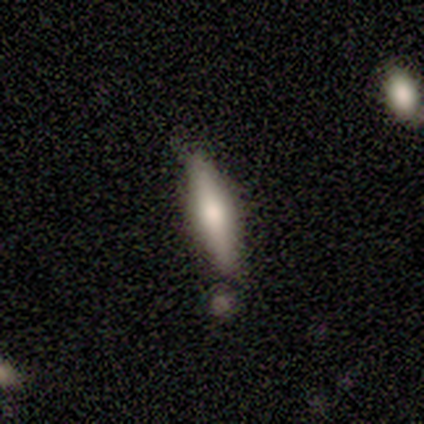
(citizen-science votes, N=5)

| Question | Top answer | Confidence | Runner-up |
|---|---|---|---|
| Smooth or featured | smooth | 80% | featured or disk (20%) |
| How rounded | cigar-shaped | 100% | — |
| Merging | none | 60% | minor disturbance (40%) |